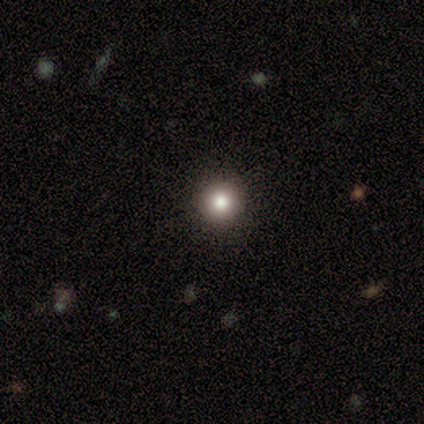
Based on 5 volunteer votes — Q: Smooth or featured?
A: smooth (80%); runner-up: featured or disk (20%)
Q: How rounded?
A: round (100%)
Q: Merging?
A: none (100%)